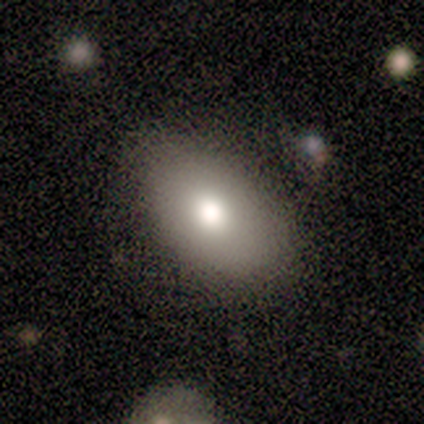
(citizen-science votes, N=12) Smooth or featured? smooth (100%)
How rounded? in between (83%)
Merging? none (67%)